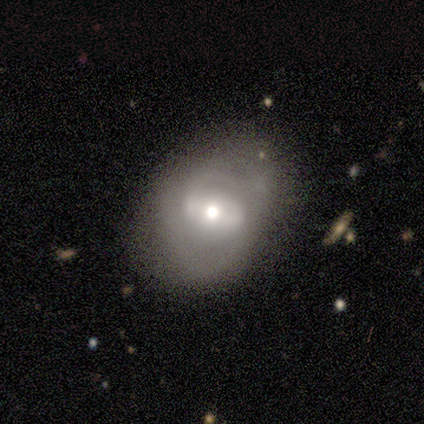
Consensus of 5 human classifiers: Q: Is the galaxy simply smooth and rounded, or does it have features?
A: featured or disk — 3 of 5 (60%).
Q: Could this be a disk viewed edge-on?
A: no — 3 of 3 (100%).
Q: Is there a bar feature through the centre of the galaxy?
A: weak — 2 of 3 (67%).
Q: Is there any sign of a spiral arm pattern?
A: yes — 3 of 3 (100%).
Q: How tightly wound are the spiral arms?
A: medium — 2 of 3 (67%).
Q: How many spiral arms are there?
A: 2 — 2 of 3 (67%).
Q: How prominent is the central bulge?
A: moderate — 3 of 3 (100%).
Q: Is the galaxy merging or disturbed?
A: minor disturbance — 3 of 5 (60%).